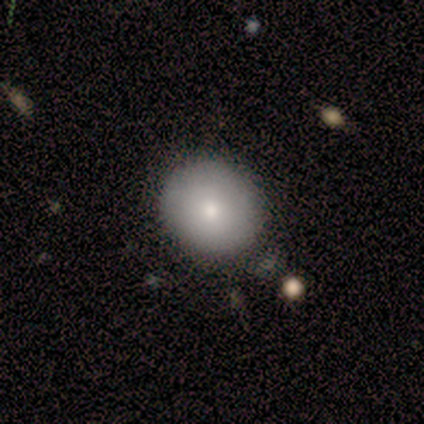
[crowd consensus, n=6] A smooth galaxy with no disk features (83%) that is round (60%).

Vote fractions:
- Smooth or featured? smooth: 83% / featured or disk: 17% / star or artifact: 0%
- How rounded? round: 60% / in between: 20% / cigar-shaped: 20%
- Merging? none: 83% / major disturbance: 17% / minor disturbance: 0% / merger: 0%